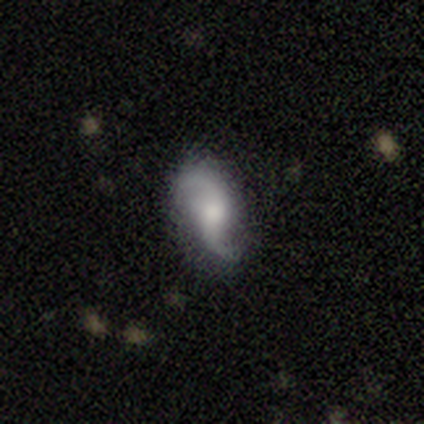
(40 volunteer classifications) smooth-or-featured: featured or disk: 85% | smooth: 8% | star or artifact: 8%
  disk-edge-on: no: 100% | yes: 0%
    bar: no: 47% | weak: 44% | strong: 9%
    has-spiral-arms: yes: 100% | no: 0%
      spiral-winding: loose: 82% | medium: 15% | tight: 3%
      spiral-arm-count: 2: 94% | 1: 6% | 3: 0% | 4: 0% | more than 4: 0% | can't tell: 0%
    bulge-size: moderate: 53% | small: 29% | large: 12% | none: 6% | dominant: 0%
  merging: none: 70% | minor disturbance: 22% | major disturbance: 8% | merger: 0%